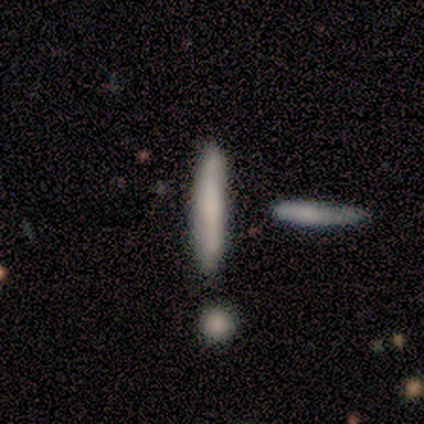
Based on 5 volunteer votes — smooth_or_featured: smooth (p=0.80) [alt: featured or disk p=0.20]
how_rounded: cigar-shaped (p=1.00)
merging: none (p=0.40) [tied with: merger p=0.40]